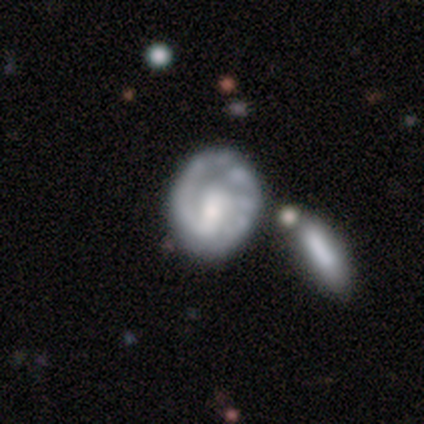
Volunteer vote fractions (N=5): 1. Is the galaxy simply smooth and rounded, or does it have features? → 100% featured or disk, 0% smooth, 0% star or artifact.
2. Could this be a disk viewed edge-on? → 100% no, 0% yes.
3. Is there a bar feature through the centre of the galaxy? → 80% no, 20% weak, 0% strong.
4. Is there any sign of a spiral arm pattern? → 100% yes, 0% no.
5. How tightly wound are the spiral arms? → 80% tight, 20% loose, 0% medium.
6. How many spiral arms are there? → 100% 1, 0% 2, 0% 3, 0% 4, 0% more than 4, 0% can't tell.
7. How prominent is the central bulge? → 60% moderate, 20% small, 20% none, 0% dominant, 0% large.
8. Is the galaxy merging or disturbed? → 80% none, 20% major disturbance, 0% minor disturbance, 0% merger.